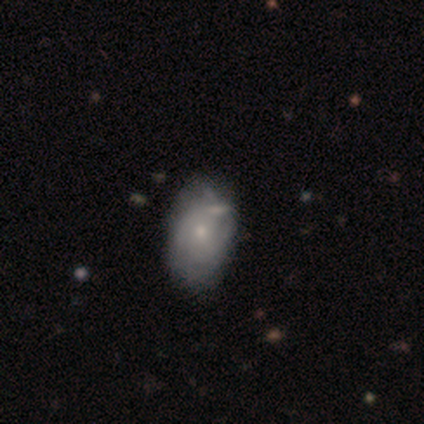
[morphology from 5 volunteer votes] smooth-or-featured: featured or disk: 60% | smooth: 40% | star or artifact: 0%
  disk-edge-on: no: 100% | yes: 0%
    bar: no: 67% | weak: 33% | strong: 0%
    has-spiral-arms: no: 67% | yes: 33%
    bulge-size: small: 100% | dominant: 0% | large: 0% | moderate: 0% | none: 0%
  merging: none: 40% | minor disturbance: 20% | major disturbance: 20% | merger: 20%